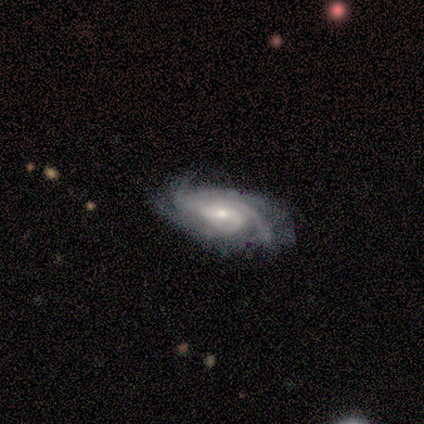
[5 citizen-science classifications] smooth-or-featured: featured or disk: 100% | smooth: 0% | star or artifact: 0%
  disk-edge-on: no: 100% | yes: 0%
    bar: strong: 60% | weak: 40% | no: 0%
    has-spiral-arms: yes: 100% | no: 0%
      spiral-winding: medium: 60% | tight: 40% | loose: 0%
      spiral-arm-count: 4: 60% | 2: 20% | 3: 20% | 1: 0% | more than 4: 0% | can't tell: 0%
    bulge-size: small: 60% | large: 20% | moderate: 20% | dominant: 0% | none: 0%
  merging: none: 60% | minor disturbance: 20% | major disturbance: 20% | merger: 0%